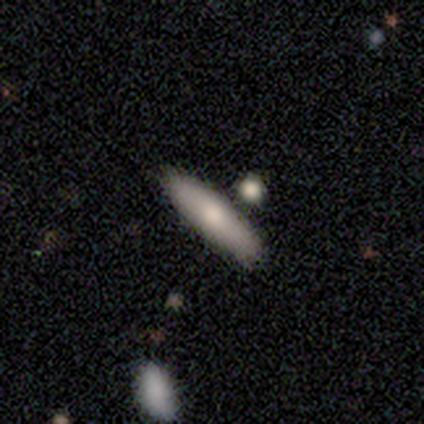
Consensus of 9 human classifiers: smooth-or-featured: smooth: 89% | featured or disk: 11% | star or artifact: 0%
  how-rounded: cigar-shaped: 62% | in between: 38% | round: 0%
  merging: none: 56% | minor disturbance: 22% | merger: 22% | major disturbance: 0%